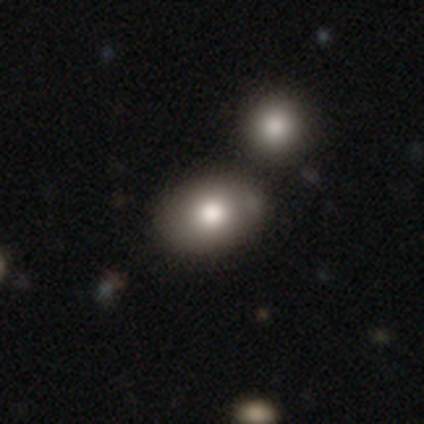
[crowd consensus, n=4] Volunteers were most divided on "how rounded" (2-way tie): round: 50%, in between: 50%, cigar-shaped: 0%. More confident: smooth or featured — smooth (100%); merging — none (75%).